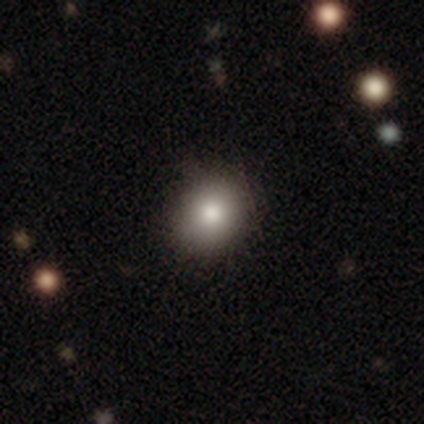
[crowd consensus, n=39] Smooth or featured? smooth (82%)
How rounded? round (75%)
Merging? none (60%)